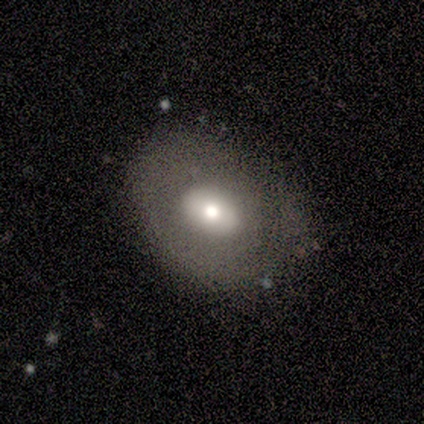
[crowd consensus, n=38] smooth-or-featured: smooth: 84% | featured or disk: 11% | star or artifact: 5%
  how-rounded: in between: 59% | round: 41% | cigar-shaped: 0%
  merging: none: 81% | minor disturbance: 14% | major disturbance: 6% | merger: 0%